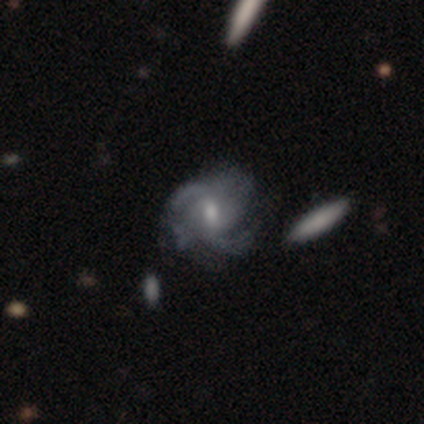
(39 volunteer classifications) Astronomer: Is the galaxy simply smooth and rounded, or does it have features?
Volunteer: featured or disk — 87%.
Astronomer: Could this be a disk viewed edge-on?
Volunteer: no — 97%.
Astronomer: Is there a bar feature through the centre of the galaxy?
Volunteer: weak — 55% (runner-up: no, 33%).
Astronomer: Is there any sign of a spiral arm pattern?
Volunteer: yes — 91%.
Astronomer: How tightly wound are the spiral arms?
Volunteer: medium — 57%.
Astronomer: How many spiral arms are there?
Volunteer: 2 — 53%.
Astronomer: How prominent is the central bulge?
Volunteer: moderate — 48% (runner-up: small, 45%).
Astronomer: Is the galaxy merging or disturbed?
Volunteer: none — 58%.